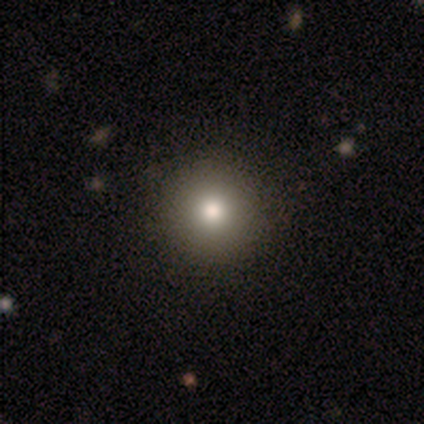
Morphology: type=smooth (82%); roundness=round (94%); merging=none (70%).